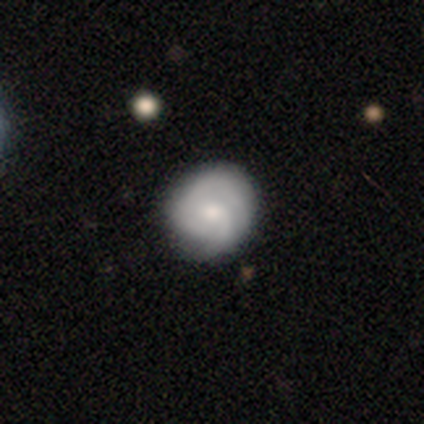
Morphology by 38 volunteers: Smooth or featured: featured or disk — 50% (smooth — 37%)
Edge-on disk: no — 89% (yes — 11%)
Bar: no — 65% (weak — 29%)
Spiral arms: yes — 88% (no — 12%)
Spiral winding: tight — 53% (medium — 27%)
Spiral arm count: 1 — 33% (2 — 27%)
Bulge size: moderate — 47% (small — 29%)
Merging: none — 79% (minor disturbance — 18%)